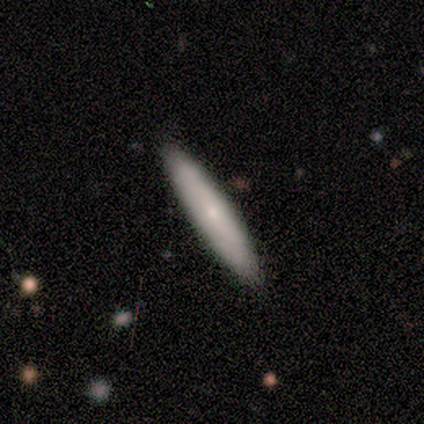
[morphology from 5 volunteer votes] type=smooth (60%); roundness=cigar-shaped (100%); merging=none (60%).